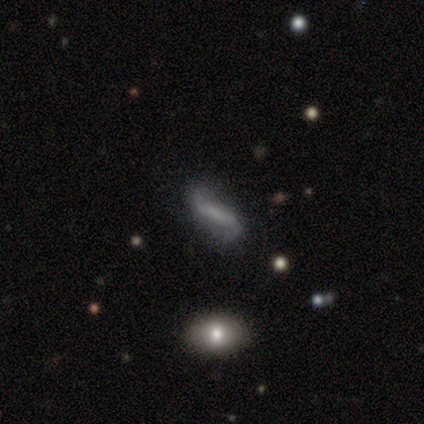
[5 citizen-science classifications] Overall: featured or disk (60%; smooth 40%). Edge-on disk: no (100%). Bar: strong (100%). Spiral arms: yes (67%; no 33%). Spiral arm count: 2 (100%). Spiral winding: loose (100%). Bulge size: none (100%). Merging: none (60%; minor disturbance 20%).